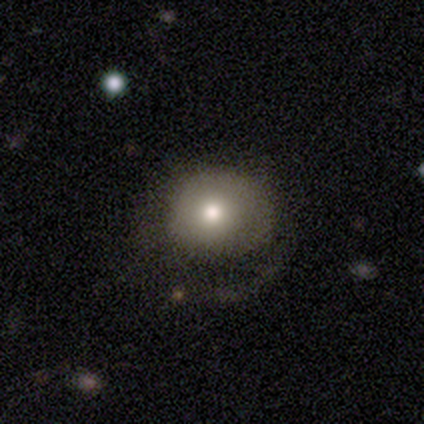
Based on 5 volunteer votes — This is likely a smooth galaxy (60%). How rounded: clearly round (100%). Merging: marginally none (40%, tied with major disturbance).